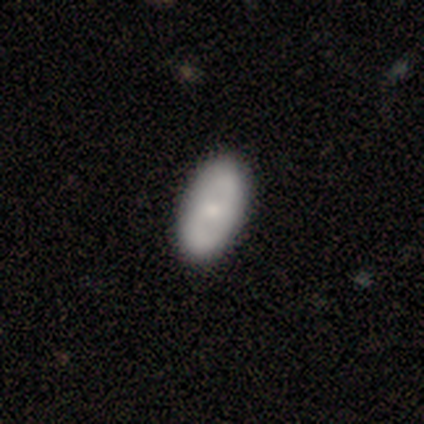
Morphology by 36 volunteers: This is possibly a smooth galaxy (53%). How rounded: clearly in between (95%). Merging: likely none (67%).